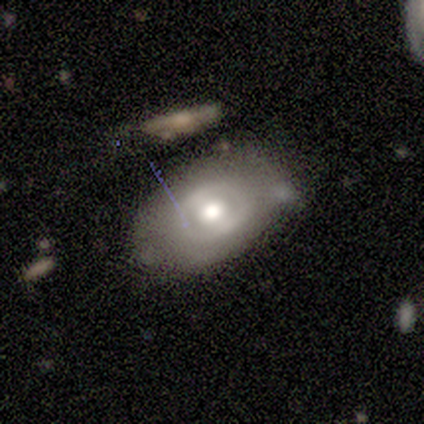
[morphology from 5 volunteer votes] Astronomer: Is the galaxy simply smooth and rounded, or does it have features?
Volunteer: smooth — 60% (runner-up: featured or disk, 40%).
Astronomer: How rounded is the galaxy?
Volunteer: in between — 100%.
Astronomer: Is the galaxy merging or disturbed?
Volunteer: none — 60%.